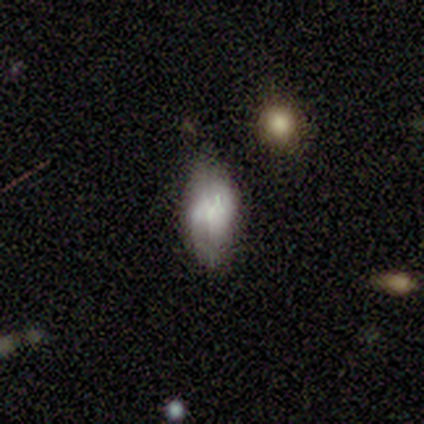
smooth_or_featured: smooth (p=1.00)
how_rounded: in between (p=1.00)
merging: none (p=0.50) [tied with: minor disturbance p=0.50]